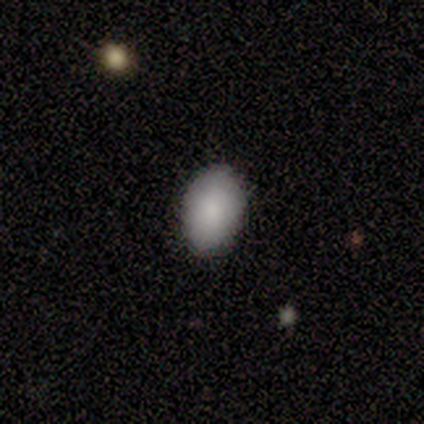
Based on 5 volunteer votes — A smooth galaxy with no disk features (80%) that is in between round and cigar-shaped (75%).

Vote fractions:
- Smooth or featured? smooth: 80% / star or artifact: 20% / featured or disk: 0%
- How rounded? in between: 75% / round: 25% / cigar-shaped: 0%
- Merging? none: 75% / minor disturbance: 25% / major disturbance: 0% / merger: 0%